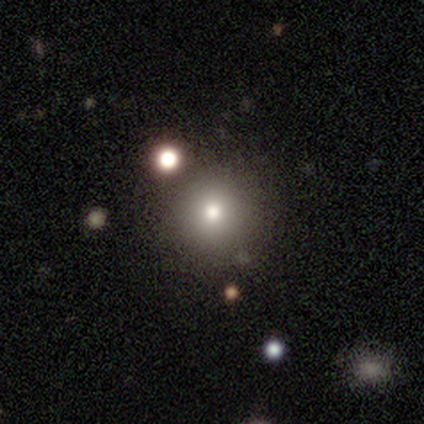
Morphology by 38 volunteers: type=smooth (66%); roundness=round (96%); merging=none (77%).